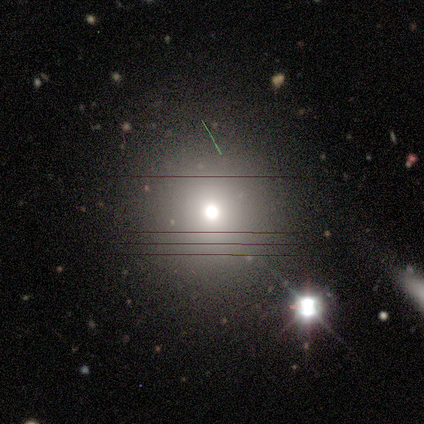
This appears to be a smooth galaxy with no disk features (60%) that is round (100%). Merging: none (100%).